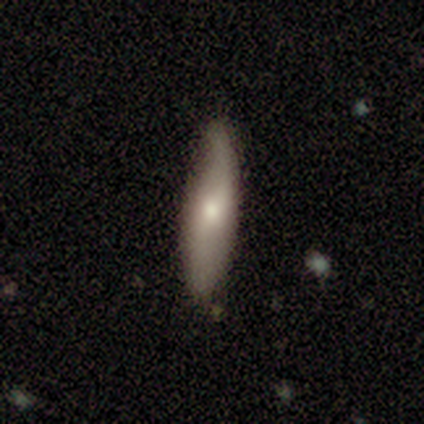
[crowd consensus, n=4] This is possibly a smooth galaxy (50%, tied with featured or disk). How rounded: clearly in between (100%). Merging: likely none (75%).